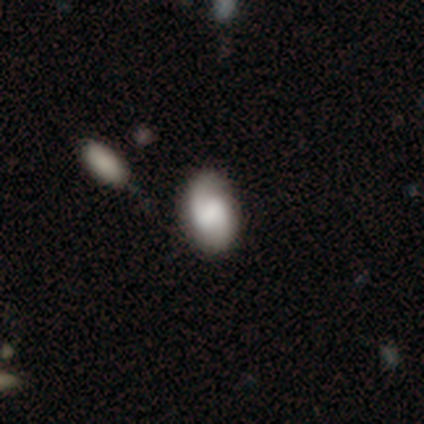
Volunteers were most divided on "bar": weak: 36%, strong: 32%, no: 32%. Remaining: edge-on disk — no (100%); spiral arms — yes (95%); spiral arm count — 2 (71%); merging — none (69%); smooth or featured — featured or disk (56%); spiral winding — medium (48%); bulge size — large (41%).